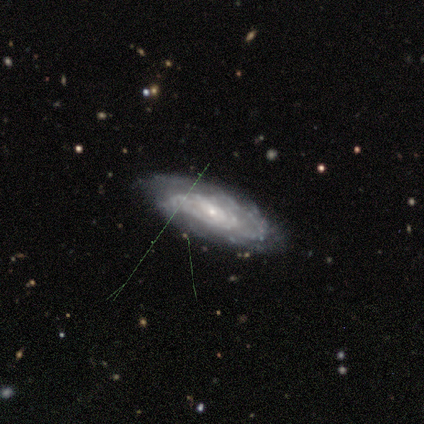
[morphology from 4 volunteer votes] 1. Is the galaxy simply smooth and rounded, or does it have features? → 100% featured or disk, 0% smooth, 0% star or artifact.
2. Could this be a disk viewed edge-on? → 100% no, 0% yes.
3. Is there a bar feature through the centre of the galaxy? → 100% no, 0% strong, 0% weak.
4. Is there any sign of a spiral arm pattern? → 75% yes, 25% no.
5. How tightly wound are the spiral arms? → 67% tight, 33% loose, 0% medium.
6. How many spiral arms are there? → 33% 1 (tied), 33% more than 4 (tied), 33% can't tell (tied), 0% 2, 0% 3, 0% 4.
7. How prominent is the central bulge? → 75% small, 25% large, 0% dominant, 0% moderate, 0% none.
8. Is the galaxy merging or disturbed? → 100% none, 0% minor disturbance, 0% major disturbance, 0% merger.